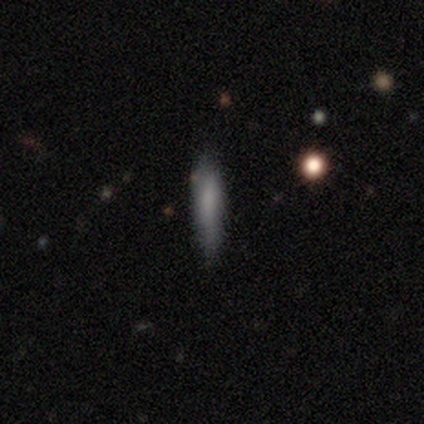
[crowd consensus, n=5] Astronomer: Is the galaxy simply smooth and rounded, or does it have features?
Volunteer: smooth — 60%.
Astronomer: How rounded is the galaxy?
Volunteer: cigar-shaped — 100%.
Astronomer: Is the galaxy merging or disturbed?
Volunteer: none — 100%.